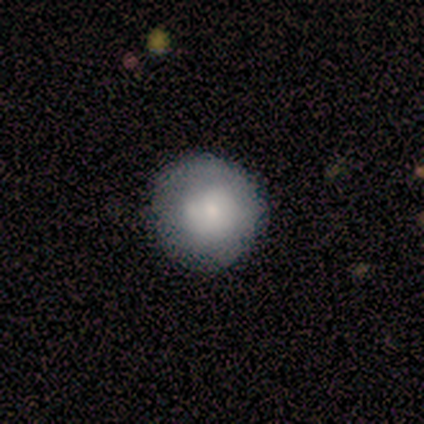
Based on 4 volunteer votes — smooth-or-featured: smooth: 75% | featured or disk: 25% | star or artifact: 0%
  how-rounded: round: 100% | in between: 0% | cigar-shaped: 0%
  merging: none: 50% | minor disturbance: 25% | merger: 25% | major disturbance: 0%